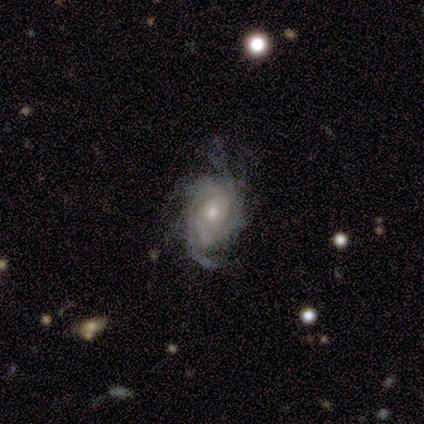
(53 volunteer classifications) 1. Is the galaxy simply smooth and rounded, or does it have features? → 96% featured or disk, 4% star or artifact, 0% smooth.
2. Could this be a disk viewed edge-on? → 100% no, 0% yes.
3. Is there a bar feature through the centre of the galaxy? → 82% no, 10% weak, 8% strong.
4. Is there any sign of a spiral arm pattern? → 98% yes, 2% no.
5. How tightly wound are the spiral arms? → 54% tight, 36% medium, 10% loose.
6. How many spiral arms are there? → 32% 2, 26% can't tell, 16% more than 4, 14% 3, 6% 1, 6% 4.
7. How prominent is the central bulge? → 59% moderate, 35% small, 4% large, 2% none, 0% dominant.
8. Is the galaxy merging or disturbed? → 51% none, 37% minor disturbance, 12% major disturbance, 0% merger.